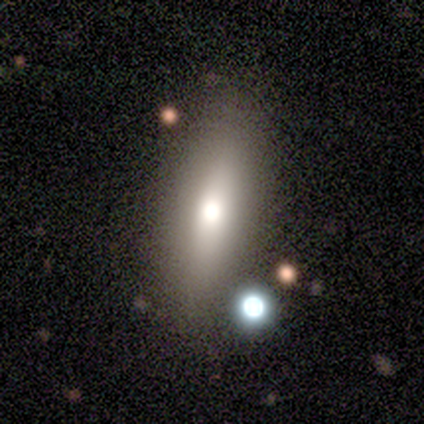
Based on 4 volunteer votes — Q: Smooth or featured?
A: smooth (50%); runner-up: featured or disk (25%)
Q: How rounded?
A: in between (100%)
Q: Merging?
A: none (100%)